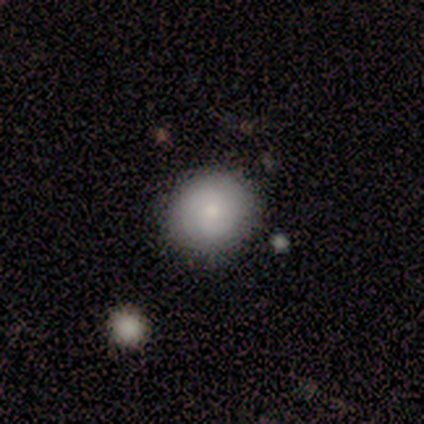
Volunteers were most divided on "smooth or featured": smooth: 70%, featured or disk: 19%, star or artifact: 11%. More confident: how rounded — round (96%); merging — none (91%).